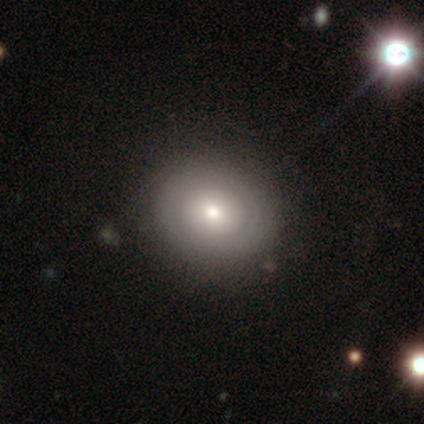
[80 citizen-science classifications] Smooth or featured? smooth (59%)
How rounded? round (72%)
Merging? none (44%)